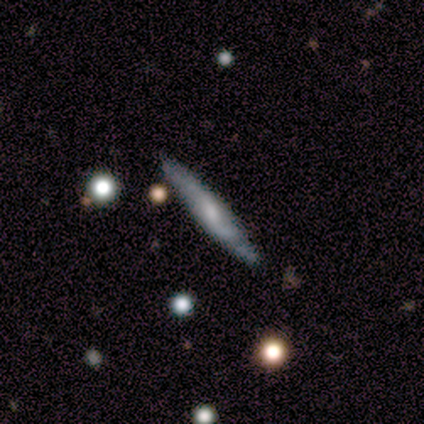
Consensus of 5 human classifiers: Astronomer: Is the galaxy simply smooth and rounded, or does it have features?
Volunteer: featured or disk — 80%.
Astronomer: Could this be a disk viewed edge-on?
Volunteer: yes — 100%.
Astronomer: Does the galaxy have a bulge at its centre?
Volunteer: rounded — 75%.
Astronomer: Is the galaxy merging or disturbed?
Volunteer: none — 100%.